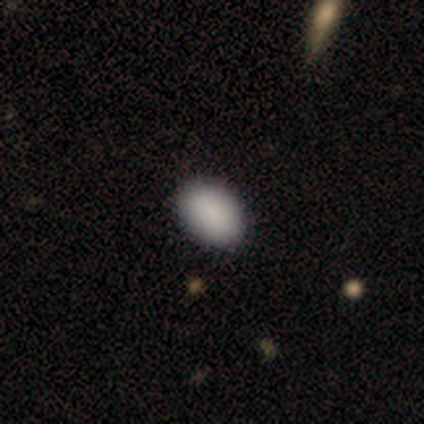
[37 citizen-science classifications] A smooth galaxy with no disk features (84%) that is in between round and cigar-shaped (87%).

Vote fractions:
- Smooth or featured? smooth: 84% / star or artifact: 16% / featured or disk: 0%
- How rounded? in between: 87% / round: 13% / cigar-shaped: 0%
- Merging? none: 94% / minor disturbance: 6% / major disturbance: 0% / merger: 0%